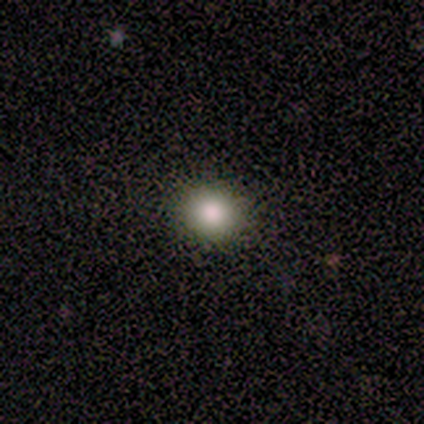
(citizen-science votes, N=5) Q: Smooth or featured?
A: smooth (80%); runner-up: star or artifact (20%)
Q: How rounded?
A: round (50%); tied with: in between (50%)
Q: Merging?
A: none (100%)